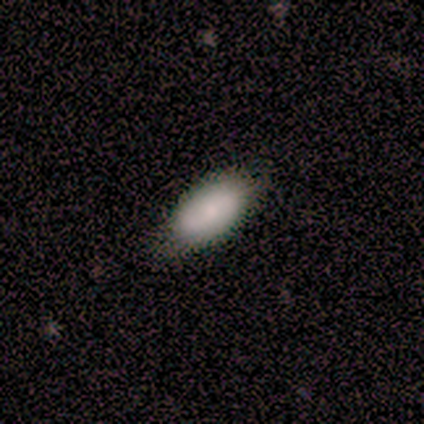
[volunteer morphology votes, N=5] Smooth or featured? 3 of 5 (60%) said smooth. How rounded? 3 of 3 (100%) said in between. Merging? 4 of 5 (80%) said none.